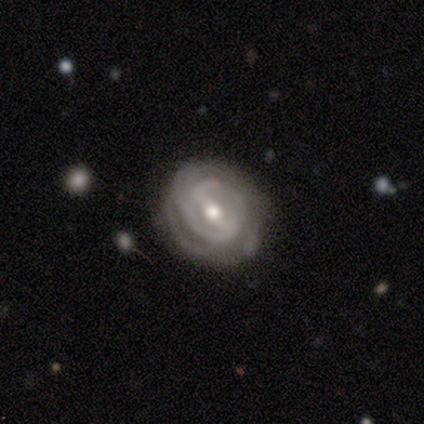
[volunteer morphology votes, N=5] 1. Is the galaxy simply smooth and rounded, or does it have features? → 100% featured or disk, 0% smooth, 0% star or artifact.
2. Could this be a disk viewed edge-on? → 100% no, 0% yes.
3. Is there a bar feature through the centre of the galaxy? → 60% strong, 40% weak, 0% no.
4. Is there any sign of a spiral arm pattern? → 100% yes, 0% no.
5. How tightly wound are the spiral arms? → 80% tight, 20% medium, 0% loose.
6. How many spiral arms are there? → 40% 2 (tied), 40% can't tell (tied), 20% 3, 0% 1, 0% 4, 0% more than 4.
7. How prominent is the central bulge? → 100% moderate, 0% dominant, 0% large, 0% small, 0% none.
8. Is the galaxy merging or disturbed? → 60% none, 20% minor disturbance, 20% major disturbance, 0% merger.